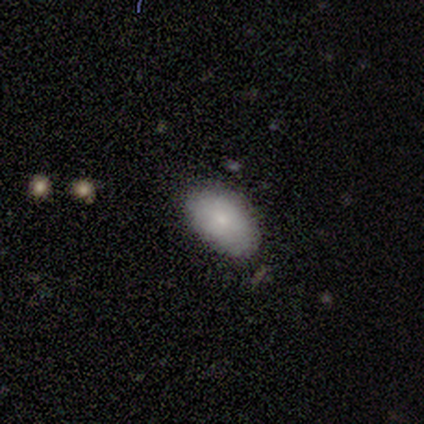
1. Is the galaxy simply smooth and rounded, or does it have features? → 100% smooth, 0% featured or disk, 0% star or artifact.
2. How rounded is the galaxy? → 100% in between, 0% round, 0% cigar-shaped.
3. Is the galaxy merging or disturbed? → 100% none, 0% minor disturbance, 0% major disturbance, 0% merger.